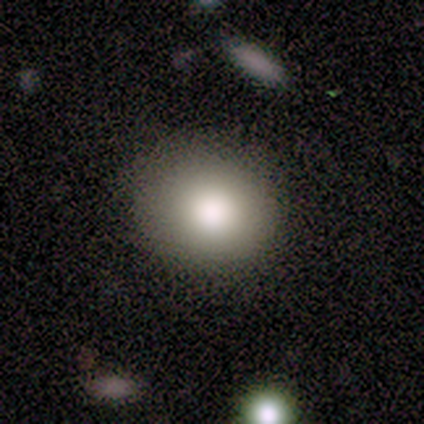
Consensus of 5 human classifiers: smooth 80%, featured or disk 20%, star or artifact 0%. Down the decision tree: how rounded — round (75%); merging — none (100%).